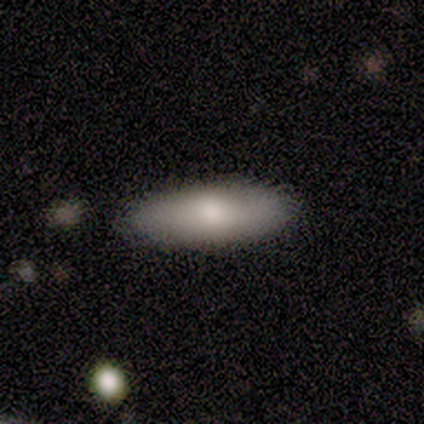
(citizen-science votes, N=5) Morphology: type=smooth (60%); roundness=cigar-shaped (67%); merging=none (100%).